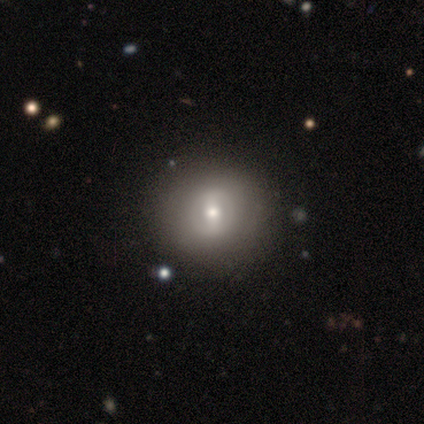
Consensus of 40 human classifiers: Smooth or featured: featured or disk — 52% (smooth — 40%)
Edge-on disk: no — 90% (yes — 10%)
Bar: strong — 79% (weak — 16%)
Spiral arms: no — 74% (yes — 26%)
Bulge size: moderate — 79% (large — 11%)
Merging: none — 70% (major disturbance — 3%)